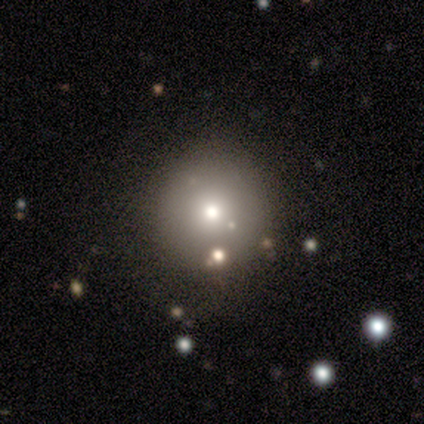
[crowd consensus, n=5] Q: Smooth or featured?
A: smooth (60%); runner-up: star or artifact (40%)
Q: How rounded?
A: round (100%)
Q: Merging?
A: none (100%)